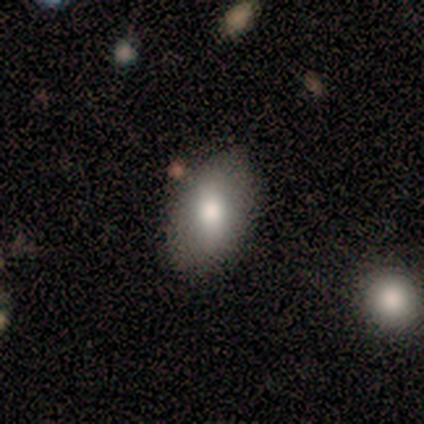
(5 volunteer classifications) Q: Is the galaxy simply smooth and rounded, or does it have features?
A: smooth — 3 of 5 (60%).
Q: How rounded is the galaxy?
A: in between — 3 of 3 (100%).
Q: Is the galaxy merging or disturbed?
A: none — 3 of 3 (100%).